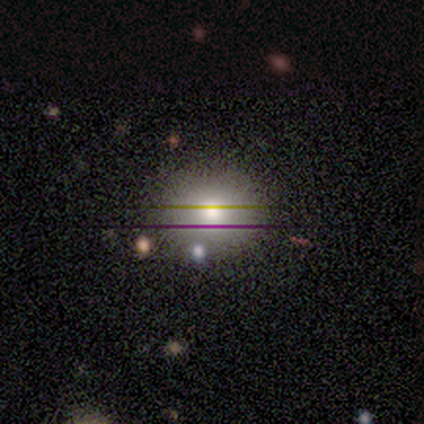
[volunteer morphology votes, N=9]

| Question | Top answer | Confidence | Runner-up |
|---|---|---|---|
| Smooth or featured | smooth | 67% | star or artifact (22%) |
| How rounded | round | 83% | in between (17%) |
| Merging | none | 86% | minor disturbance (14%) |